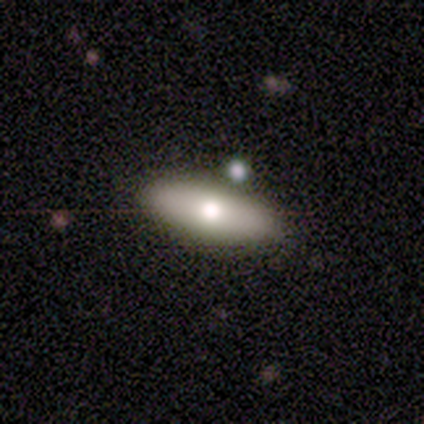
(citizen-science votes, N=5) featured or disk 60%, smooth 40%, star or artifact 0%. Down the decision tree: edge-on disk — no (67%); bar — no (100%); spiral arms — no (100%); bulge size — moderate (100%); merging — none (60%).